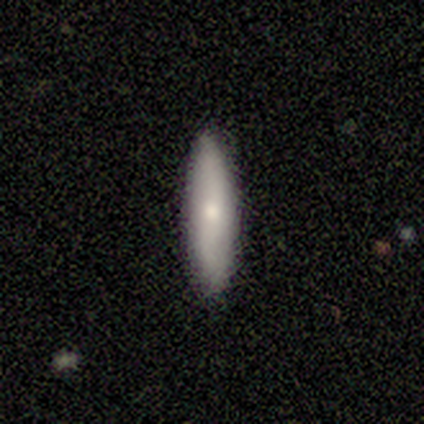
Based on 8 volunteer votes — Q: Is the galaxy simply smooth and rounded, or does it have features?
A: smooth — 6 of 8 (75%).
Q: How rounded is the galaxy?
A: cigar-shaped — 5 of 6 (83%).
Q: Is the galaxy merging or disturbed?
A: none — 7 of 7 (100%).